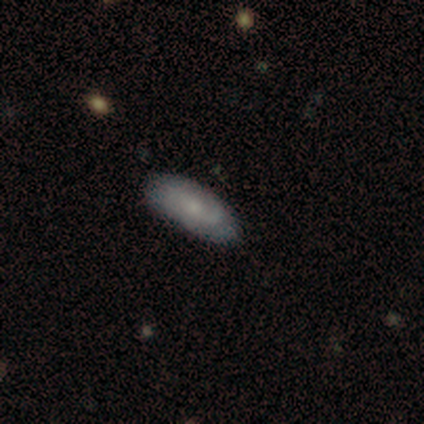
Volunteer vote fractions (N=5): Smooth or featured? featured or disk (80%)
Edge-on disk? no (100%)
Bar? no (75%)
Spiral arms? yes (75%)
Spiral winding? tight (33%, tied with medium and loose)
Spiral arm count? 1 (33%, tied with 3 and can't tell)
Bulge size? small (75%)
Merging? none (80%)